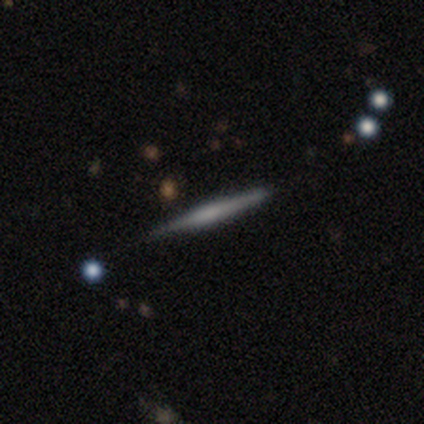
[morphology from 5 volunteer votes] Smooth or featured?
  - smooth: 80% *
  - featured or disk: 20%
  - star or artifact: 0%
How rounded?
  - cigar-shaped: 100% *
  - round: 0%
  - in between: 0%
Merging?
  - none: 80% *
  - minor disturbance: 20%
  - major disturbance: 0%
  - merger: 0%